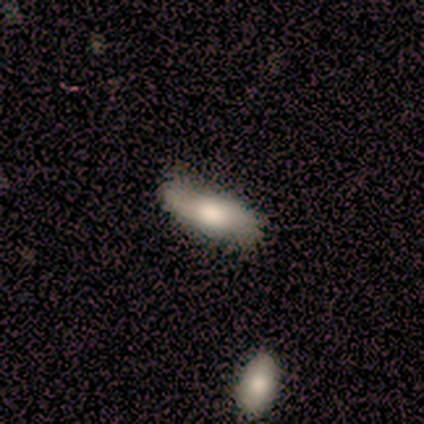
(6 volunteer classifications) Overall: smooth (67%; featured or disk 33%). How rounded: cigar-shaped (75%). Merging: none (67%).